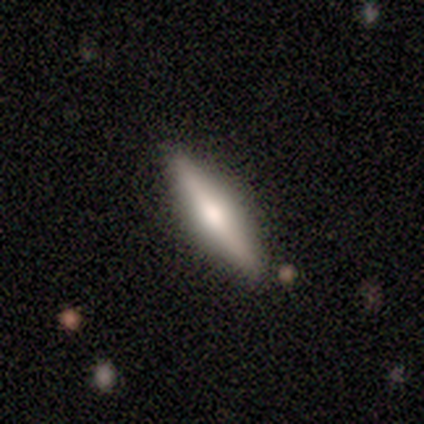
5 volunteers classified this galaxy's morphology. A smooth galaxy with no disk features (60%) that is cigar-shaped (67%).

Vote fractions:
- Smooth or featured? smooth: 60% / featured or disk: 40% / star or artifact: 0%
- How rounded? cigar-shaped: 67% / in between: 33% / round: 0%
- Merging? minor disturbance: 60% / none: 40% / major disturbance: 0% / merger: 0%